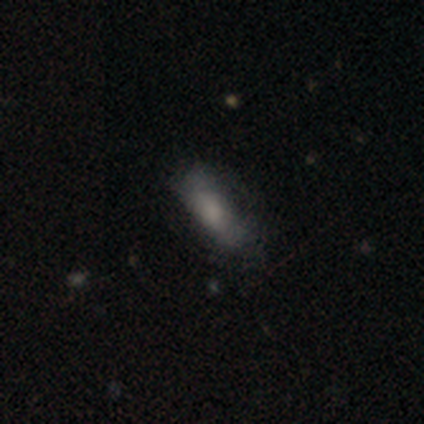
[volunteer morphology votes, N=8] This is likely a smooth galaxy (75%). How rounded: likely in between (67%). Merging: clearly none (86%).